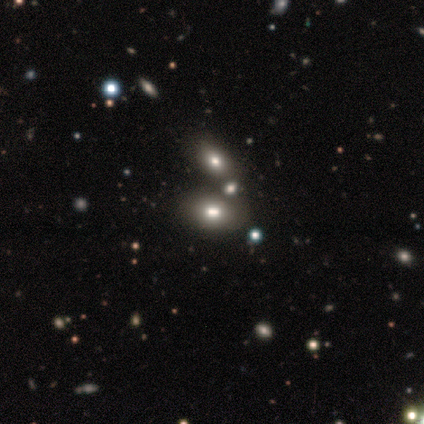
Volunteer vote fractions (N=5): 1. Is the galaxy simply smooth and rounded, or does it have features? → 60% smooth, 20% featured or disk, 20% star or artifact.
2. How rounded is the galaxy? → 100% in between, 0% round, 0% cigar-shaped.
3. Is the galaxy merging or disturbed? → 100% none, 0% minor disturbance, 0% major disturbance, 0% merger.